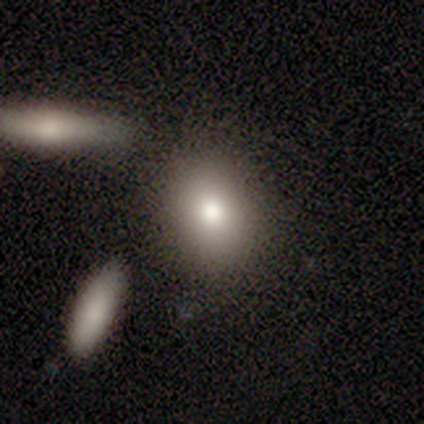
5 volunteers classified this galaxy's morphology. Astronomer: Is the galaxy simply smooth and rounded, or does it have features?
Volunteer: smooth — 60%.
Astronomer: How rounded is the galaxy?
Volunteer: in between — 67%.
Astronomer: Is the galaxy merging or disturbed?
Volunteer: none — 75%.